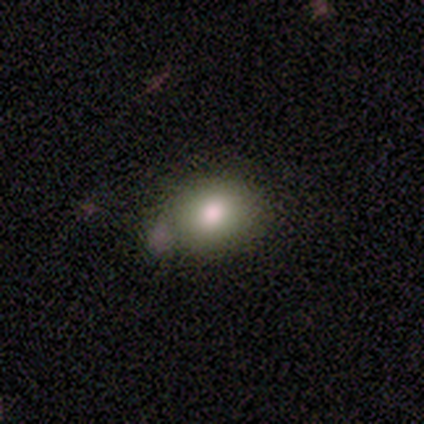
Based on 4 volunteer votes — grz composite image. It shows a smooth galaxy with no disk features (100%) that is in between round and cigar-shaped (75%). Merging: none (75%).